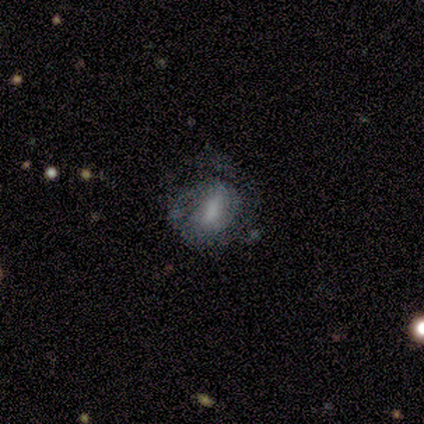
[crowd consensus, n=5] Morphology: type=smooth (40%, tied with featured or disk); roundness=in between (100%); merging=none (75%).